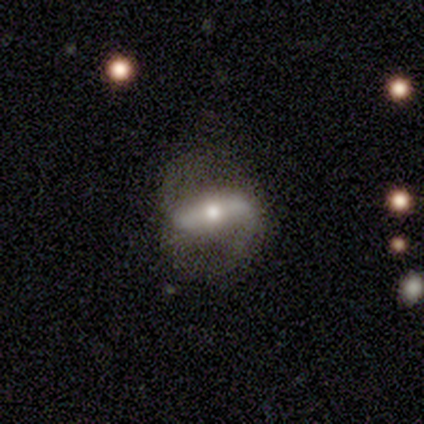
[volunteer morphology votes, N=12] Overall: featured or disk (50%; smooth 42%). Edge-on disk: no (100%). Bar: strong (83%). Spiral arms: yes (100%). Spiral arm count: 2 (83%). Spiral winding: medium (50%; loose 33%). Bulge size: moderate (50%; small 33%). Merging: none (73%).